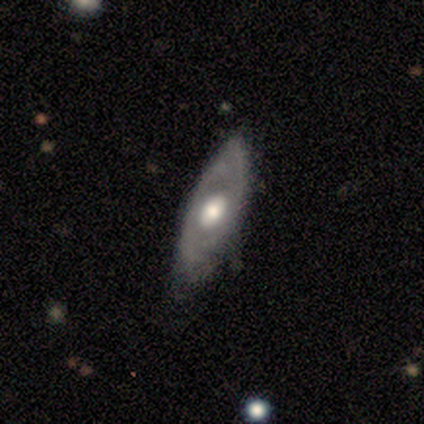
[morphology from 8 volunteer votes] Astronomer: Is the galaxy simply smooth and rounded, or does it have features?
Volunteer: featured or disk — 75%.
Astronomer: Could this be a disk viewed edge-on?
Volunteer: no — 83%.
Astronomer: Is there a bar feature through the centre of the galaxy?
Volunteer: no — 100%.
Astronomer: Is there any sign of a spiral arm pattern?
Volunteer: no — 80%.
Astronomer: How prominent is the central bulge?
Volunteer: moderate — 80%.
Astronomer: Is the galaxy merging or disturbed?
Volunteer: none — 62%.